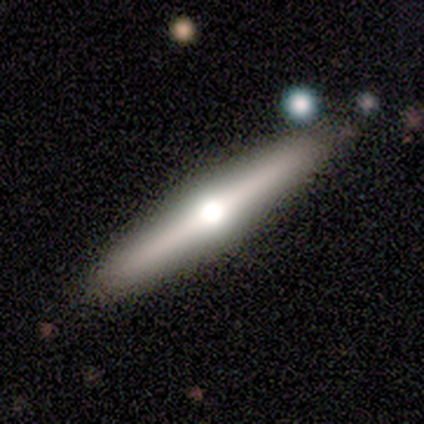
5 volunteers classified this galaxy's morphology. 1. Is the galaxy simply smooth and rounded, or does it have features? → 60% featured or disk, 20% smooth, 20% star or artifact.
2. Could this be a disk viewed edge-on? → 100% yes, 0% no.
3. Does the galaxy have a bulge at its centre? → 100% rounded, 0% boxy, 0% none.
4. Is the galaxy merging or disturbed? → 100% none, 0% minor disturbance, 0% major disturbance, 0% merger.